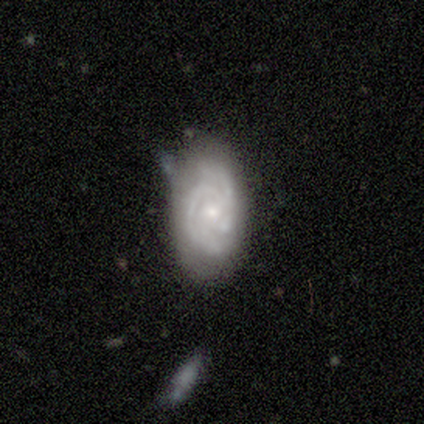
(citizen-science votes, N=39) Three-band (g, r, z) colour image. It shows a featured or disk galaxy (82%) with no bar (77%), 2 (38%) tight (83%) spiral arms (94%) and a small central bulge (65%). Merging: none (61%).